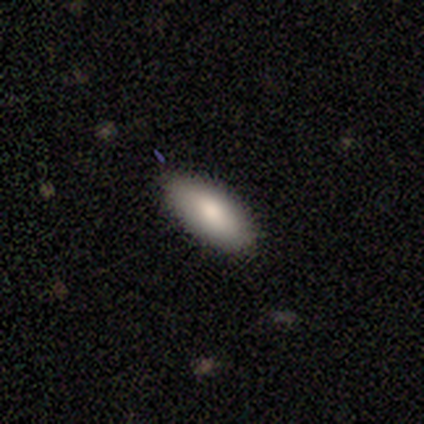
Smooth or featured?
  - smooth: 80% *
  - featured or disk: 20%
  - star or artifact: 0%
How rounded?
  - in between: 100% *
  - round: 0%
  - cigar-shaped: 0%
Merging?
  - none: 100% *
  - minor disturbance: 0%
  - major disturbance: 0%
  - merger: 0%